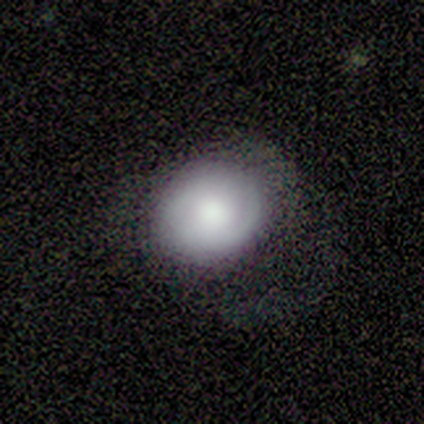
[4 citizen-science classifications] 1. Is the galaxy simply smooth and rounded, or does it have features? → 50% smooth (tied), 50% featured or disk (tied), 0% star or artifact.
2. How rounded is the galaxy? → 50% round (tied), 50% in between (tied), 0% cigar-shaped.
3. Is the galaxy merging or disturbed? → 75% none, 25% minor disturbance, 0% major disturbance, 0% merger.